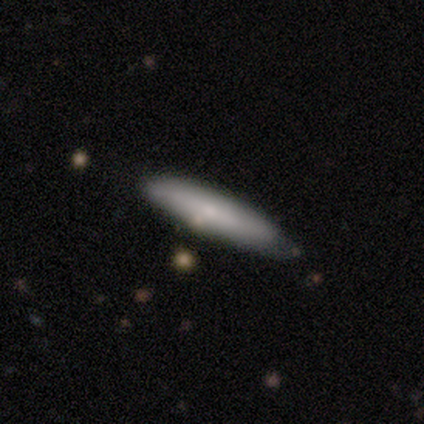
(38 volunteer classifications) Smooth or featured? smooth (74%)
How rounded? cigar-shaped (96%)
Merging? none (64%)